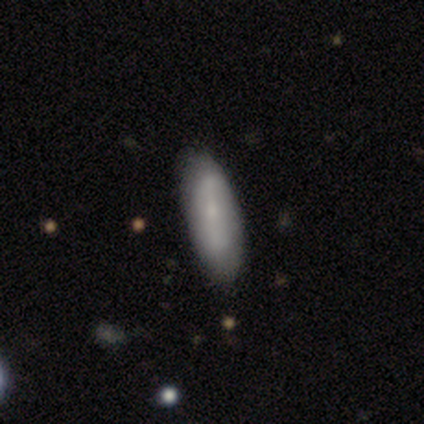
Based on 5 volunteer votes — This appears to be a featured or disk galaxy (60%) with a weak bar (67%), no spiral arms (100%) and a small central bulge (100%). Merging: none (80%).